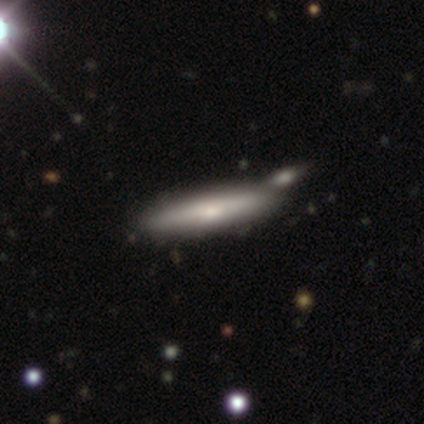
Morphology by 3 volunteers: smooth 67%, featured or disk 33%, star or artifact 0%. Down the decision tree: how rounded — cigar-shaped (100%); merging — minor disturbance (67%).